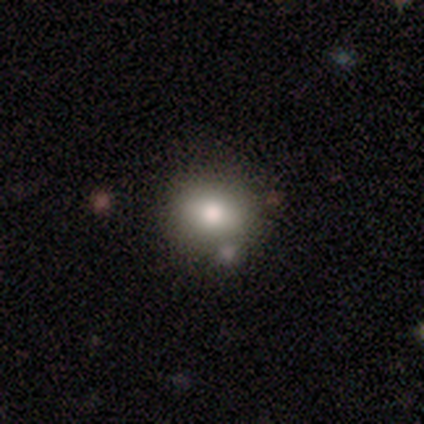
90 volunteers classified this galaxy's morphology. Volunteers were most divided on "how rounded": round: 69%, in between: 31%, cigar-shaped: 0%. More confident: merging — none (76%); smooth or featured — smooth (71%).